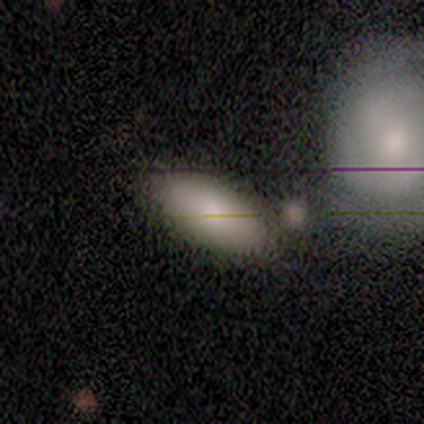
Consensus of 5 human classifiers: Smooth or featured: smooth — 80% (featured or disk — 20%)
How rounded: in between — 50% (round — 25%)
Merging: none — 60% (minor disturbance — 40%)